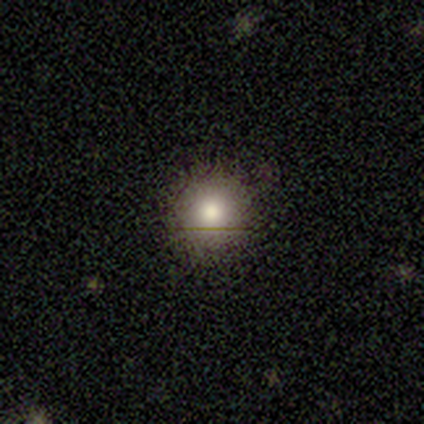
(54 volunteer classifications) Morphology: type=smooth (80%); roundness=round (93%); merging=none (87%).